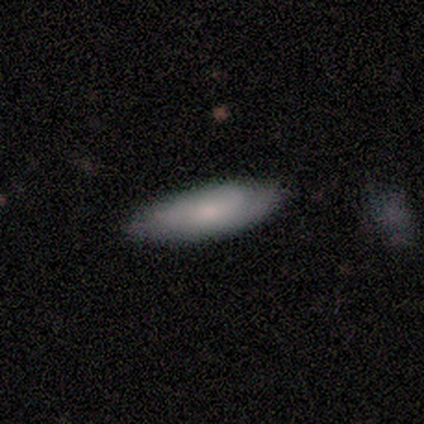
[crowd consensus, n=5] A smooth galaxy with no disk features (100%) that is in between round and cigar-shaped (60%).

Vote fractions:
- Smooth or featured? smooth: 100% / featured or disk: 0% / star or artifact: 0%
- How rounded? in between: 60% / cigar-shaped: 40% / round: 0%
- Merging? none: 60% / minor disturbance: 40% / major disturbance: 0% / merger: 0%